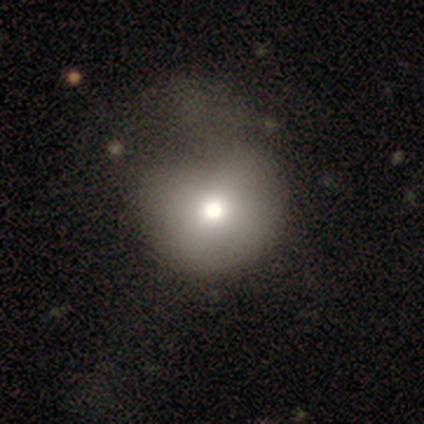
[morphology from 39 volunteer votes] Volunteers were most divided on "merging": major disturbance: 37%, none: 18%, minor disturbance: 18%, merger: 11%. More confident: how rounded — round (84%); smooth or featured — smooth (82%).